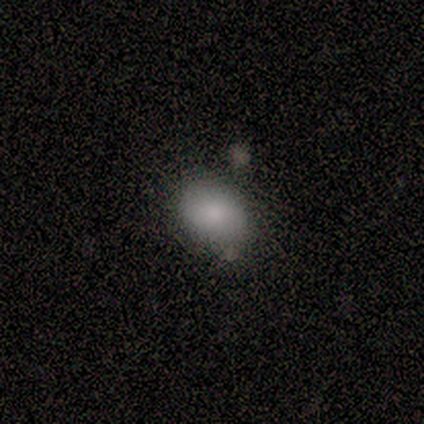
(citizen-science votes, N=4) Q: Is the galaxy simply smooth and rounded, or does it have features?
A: smooth — 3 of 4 (75%).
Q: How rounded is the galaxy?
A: in between — 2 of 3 (67%).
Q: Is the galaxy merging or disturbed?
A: none — 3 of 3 (100%).